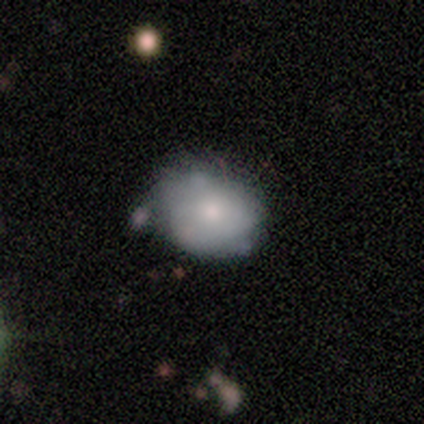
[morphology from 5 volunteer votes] type=smooth (100%); roundness=in between (80%); merging=none (60%).